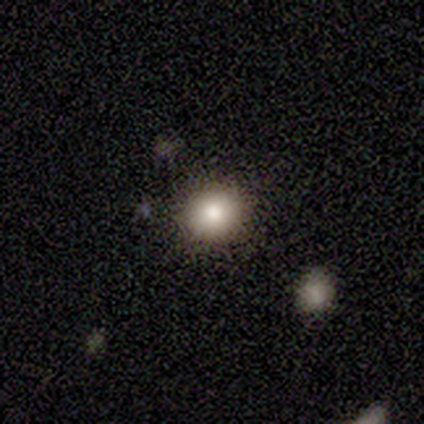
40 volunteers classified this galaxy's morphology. smooth_or_featured: smooth (p=0.75) [alt: star or artifact p=0.15]
how_rounded: round (p=0.83) [alt: in between p=0.17]
merging: none (p=0.91) [alt: minor disturbance p=0.03]